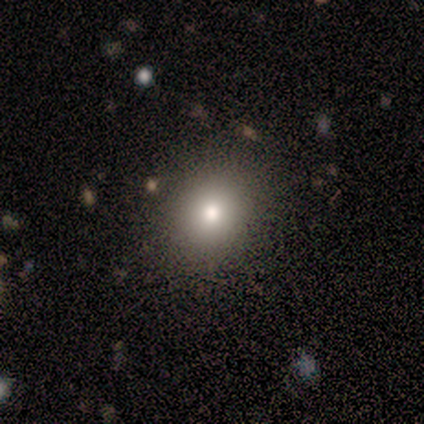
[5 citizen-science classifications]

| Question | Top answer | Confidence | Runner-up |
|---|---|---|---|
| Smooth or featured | smooth | 60% | star or artifact (40%) |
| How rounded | round | 100% | — |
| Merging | none | 100% | — |